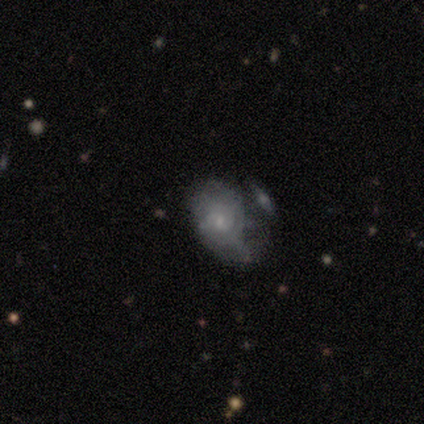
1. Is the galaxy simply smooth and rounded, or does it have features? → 100% featured or disk, 0% smooth, 0% star or artifact.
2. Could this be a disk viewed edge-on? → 100% no, 0% yes.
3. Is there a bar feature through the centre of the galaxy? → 60% no, 40% weak, 0% strong.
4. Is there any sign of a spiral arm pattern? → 80% yes, 20% no.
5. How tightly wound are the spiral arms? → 50% tight, 25% medium, 25% loose.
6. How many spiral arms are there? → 50% can't tell, 25% 1, 25% 2, 0% 3, 0% 4, 0% more than 4.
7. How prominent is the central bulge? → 80% small, 20% none, 0% dominant, 0% large, 0% moderate.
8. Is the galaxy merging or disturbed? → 60% merger, 20% none, 20% major disturbance, 0% minor disturbance.